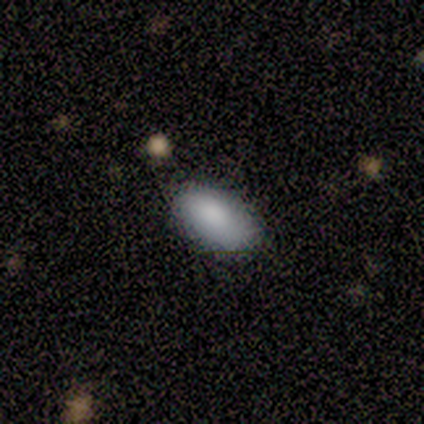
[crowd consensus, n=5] A smooth galaxy with no disk features (100%) that is in between round and cigar-shaped (100%).

Vote fractions:
- Smooth or featured? smooth: 100% / featured or disk: 0% / star or artifact: 0%
- How rounded? in between: 100% / round: 0% / cigar-shaped: 0%
- Merging? none: 60% / minor disturbance: 40% / major disturbance: 0% / merger: 0%